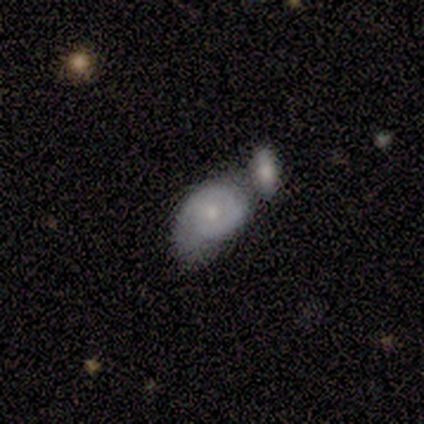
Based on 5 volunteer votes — Smooth or featured: smooth — 80% (featured or disk — 20%)
How rounded: in between — 50% (round — 25%)
Merging: merger — 80% (none — 20%)